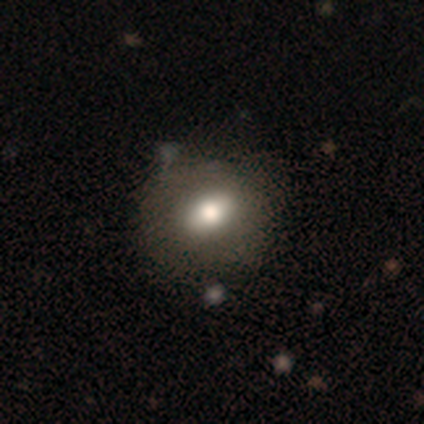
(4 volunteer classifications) smooth 50%, featured or disk 25%, star or artifact 25%. Down the decision tree: how rounded — in between (100%); merging — none (100%).